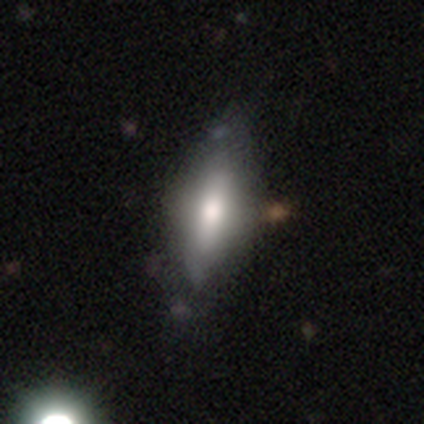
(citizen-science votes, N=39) This appears to be a smooth galaxy with no disk features (64%) that is in between round and cigar-shaped (56%). Merging: none (58%).